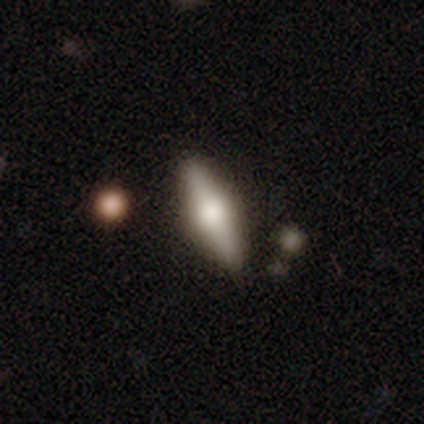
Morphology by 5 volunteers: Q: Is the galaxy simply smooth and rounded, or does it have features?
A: smooth — 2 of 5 (40%, tied with featured or disk).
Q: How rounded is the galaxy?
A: in between — 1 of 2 (50%, tied with cigar-shaped).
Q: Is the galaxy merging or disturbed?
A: none — 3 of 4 (75%).